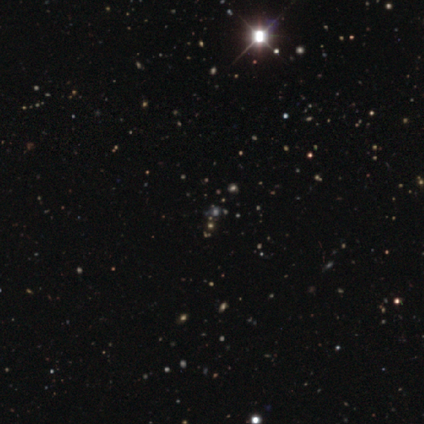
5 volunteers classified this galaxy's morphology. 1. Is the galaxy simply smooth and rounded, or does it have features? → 60% star or artifact, 40% smooth, 0% featured or disk.